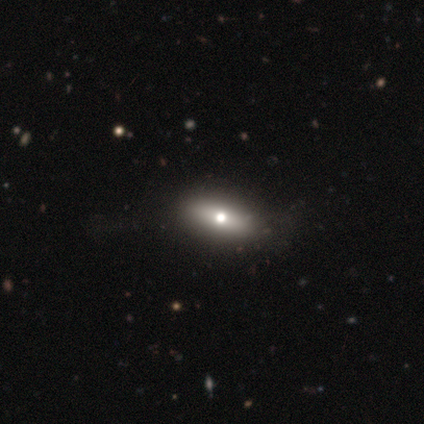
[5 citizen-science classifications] A smooth galaxy with no disk features (80%) that is in between round and cigar-shaped (75%). Merging: none (40%, tied with minor disturbance).